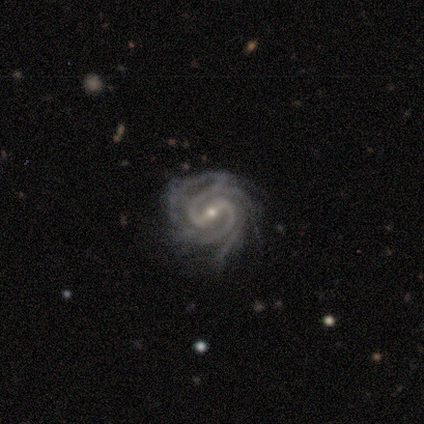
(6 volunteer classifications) Smooth or featured?
  - featured or disk: 83% *
  - star or artifact: 17%
  - smooth: 0%
Edge-on disk?
  - no: 100% *
  - yes: 0%
Bar?
  - strong: 80% *
  - weak: 20%
  - no: 0%
Spiral arms?
  - yes: 100% *
  - no: 0%
Spiral winding?
  - tight: 60% *
  - medium: 40%
  - loose: 0%
Spiral arm count?
  - 2: 60% *
  - 4: 20%
  - more than 4: 20%
  - 1: 0%
  - 3: 0%
  - can't tell: 0%
Bulge size?
  - small: 60% *
  - moderate: 40%
  - dominant: 0%
  - large: 0%
  - none: 0%
Merging?
  - none: 100% *
  - minor disturbance: 0%
  - major disturbance: 0%
  - merger: 0%